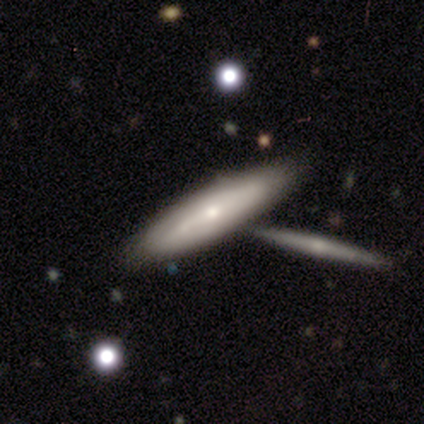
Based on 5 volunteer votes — Q: Smooth or featured?
A: featured or disk (60%); runner-up: smooth (40%)
Q: Edge-on disk?
A: yes (67%); runner-up: no (33%)
Q: Edge-on bulge?
A: none (50%); tied with: rounded (50%)
Q: Merging?
A: none (60%); runner-up: merger (40%)